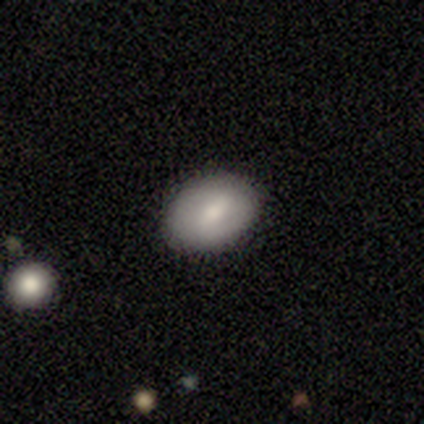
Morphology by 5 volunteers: Smooth or featured?
  - smooth: 80% *
  - featured or disk: 20%
  - star or artifact: 0%
How rounded?
  - round: 50% * (tied)
  - in between: 50% * (tied)
  - cigar-shaped: 0%
Merging?
  - none: 80% *
  - minor disturbance: 20%
  - major disturbance: 0%
  - merger: 0%